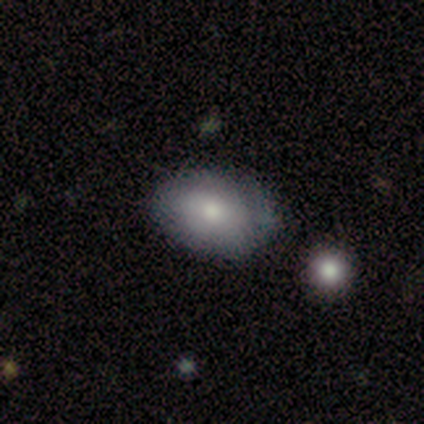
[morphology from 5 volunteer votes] smooth 80%, star or artifact 20%, featured or disk 0%. Down the decision tree: how rounded — in between (75%); merging — none (100%).